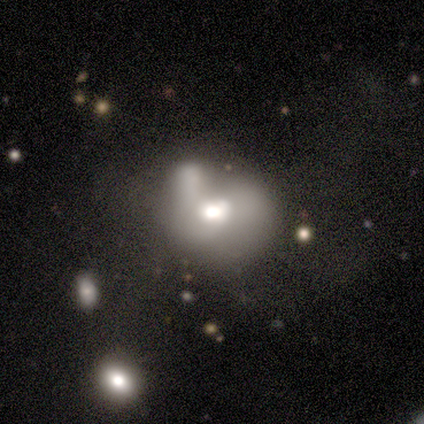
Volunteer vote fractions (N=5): Volunteers were most divided on "how rounded": in between: 67%, round: 33%, cigar-shaped: 0%. More confident: merging — merger (75%); smooth or featured — smooth (60%).